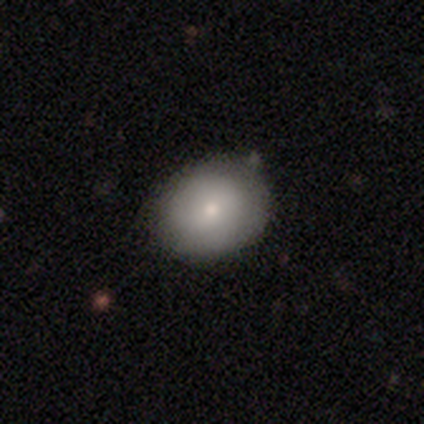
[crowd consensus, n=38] Volunteers were most divided on "how rounded": in between: 52%, round: 48%, cigar-shaped: 0%. More confident: smooth or featured — smooth (76%); merging — none (51%).